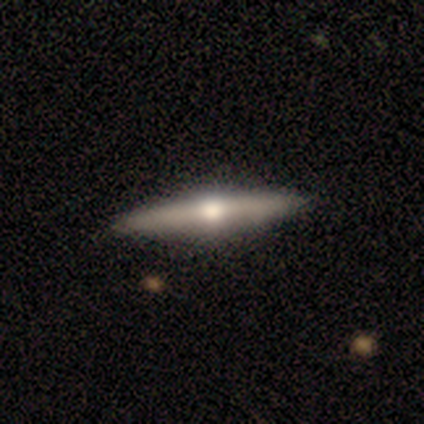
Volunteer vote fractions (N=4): A featured or disk galaxy (75%) viewed edge-on (100%) with a rounded central bulge (100%).

Vote fractions:
- Smooth or featured? featured or disk: 75% / star or artifact: 25% / smooth: 0%
- Edge-on disk? yes: 100% / no: 0%
- Edge-on bulge? rounded: 100% / boxy: 0% / none: 0%
- Merging? none: 67% / minor disturbance: 33% / major disturbance: 0% / merger: 0%